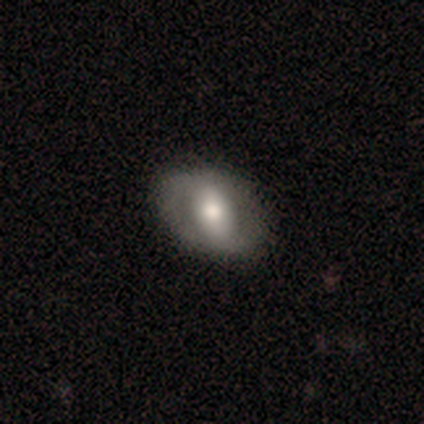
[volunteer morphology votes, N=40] This appears to be a featured or disk galaxy (57%) with a weak bar (41%), no spiral arms (68%) and a moderate central bulge (55%). Merging: none (61%).